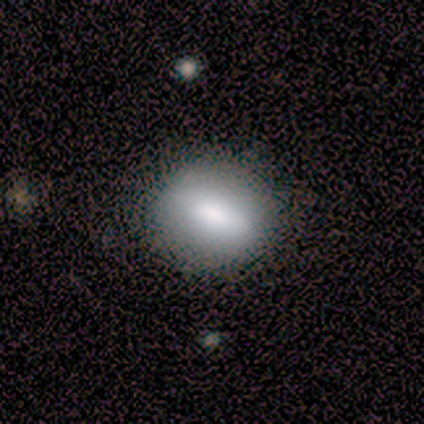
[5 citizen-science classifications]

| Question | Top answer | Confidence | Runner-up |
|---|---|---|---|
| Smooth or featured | smooth | 60% | featured or disk (40%) |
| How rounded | round | 100% | — |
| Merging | none | 80% | minor disturbance (20%) |